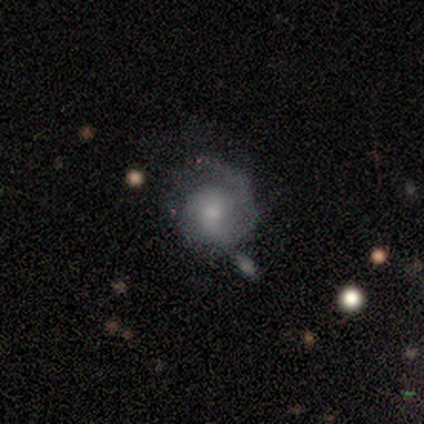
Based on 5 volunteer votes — A featured or disk galaxy (60%) with no bar (100%), medium (67%) spiral arms (100%) and a moderate central bulge (67%). Merging: minor disturbance (75%).